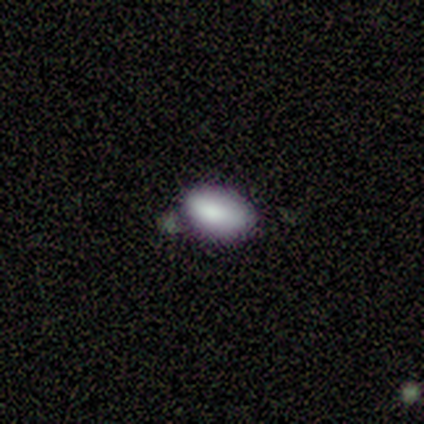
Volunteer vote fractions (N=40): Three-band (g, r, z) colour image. It shows a smooth galaxy with no disk features (78%) that is in between round and cigar-shaped (90%). Merging: none (76%).